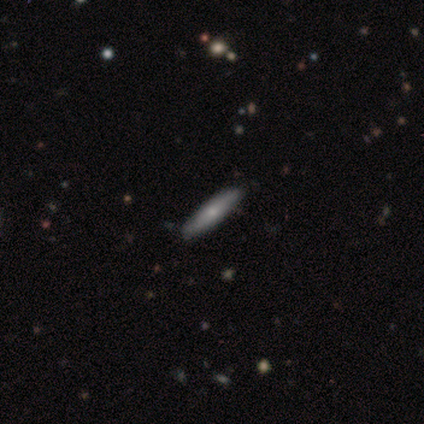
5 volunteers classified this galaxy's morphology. A smooth galaxy with no disk features (80%) that is cigar-shaped (75%).

Vote fractions:
- Smooth or featured? smooth: 80% / featured or disk: 20% / star or artifact: 0%
- How rounded? cigar-shaped: 75% / in between: 25% / round: 0%
- Merging? none: 80% / minor disturbance: 20% / major disturbance: 0% / merger: 0%